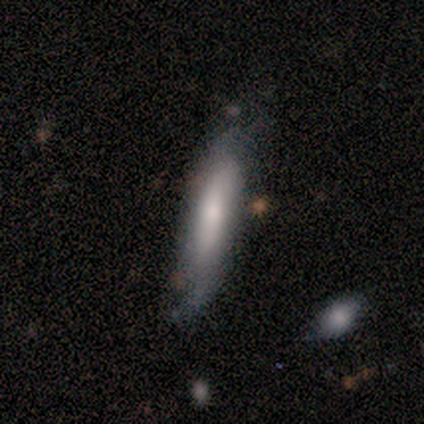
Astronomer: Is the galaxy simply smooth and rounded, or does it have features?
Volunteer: featured or disk — 75%.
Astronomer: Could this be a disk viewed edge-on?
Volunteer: no — 67%.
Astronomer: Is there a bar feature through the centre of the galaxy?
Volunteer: weak — 50%, tied with no at 50%.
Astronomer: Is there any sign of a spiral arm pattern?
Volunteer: no — 100%.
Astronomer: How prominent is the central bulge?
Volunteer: moderate — 100%.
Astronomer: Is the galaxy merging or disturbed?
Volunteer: minor disturbance — 50%.